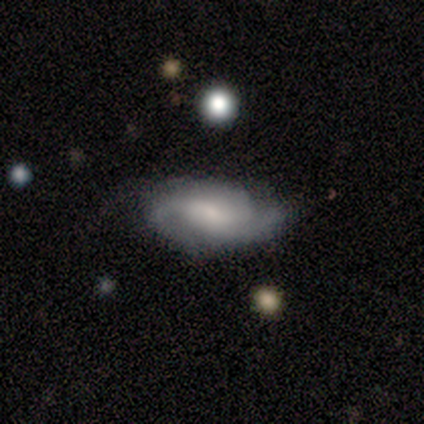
Smooth or featured? featured or disk (100%)
Edge-on disk? no (100%)
Bar? weak (67%)
Spiral arms? yes (100%)
Spiral winding? medium (67%)
Spiral arm count? 3 (50%)
Bulge size? small (67%)
Merging? none (67%)